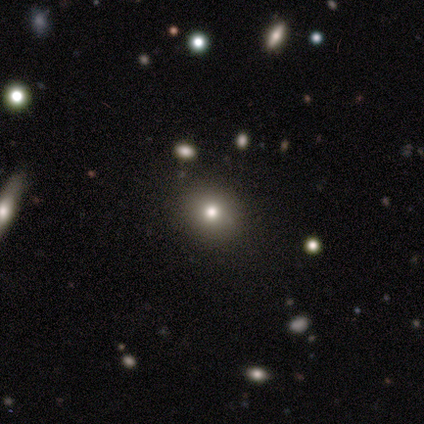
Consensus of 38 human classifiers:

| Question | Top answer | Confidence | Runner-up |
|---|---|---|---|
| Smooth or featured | smooth | 63% | star or artifact (29%) |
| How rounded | round | 88% | in between (12%) |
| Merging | none | 96% | minor disturbance (4%) |